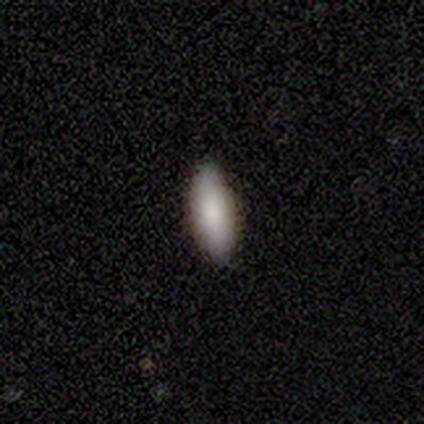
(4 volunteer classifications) This appears to be a smooth galaxy with no disk features (75%) that is in between round and cigar-shaped (67%). Merging: none (67%).